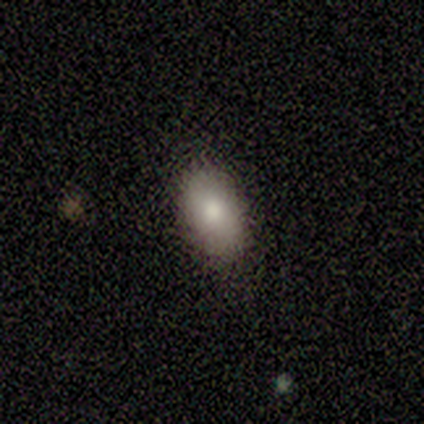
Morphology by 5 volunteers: smooth 100%, featured or disk 0%, star or artifact 0%. Down the decision tree: how rounded — in between (80%); merging — none (80%).